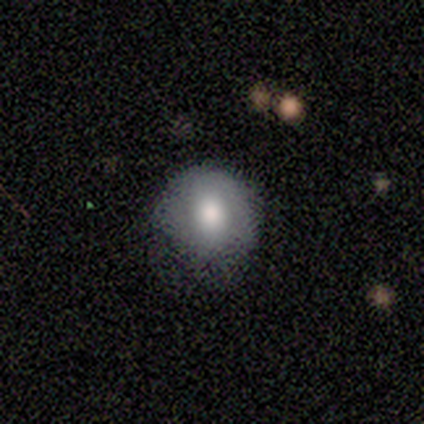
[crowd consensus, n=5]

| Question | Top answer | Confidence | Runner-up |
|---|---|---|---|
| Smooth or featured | smooth | 80% | featured or disk (20%) |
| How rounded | round | 75% | in between (25%) |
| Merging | none | 60% | minor disturbance (20%) |